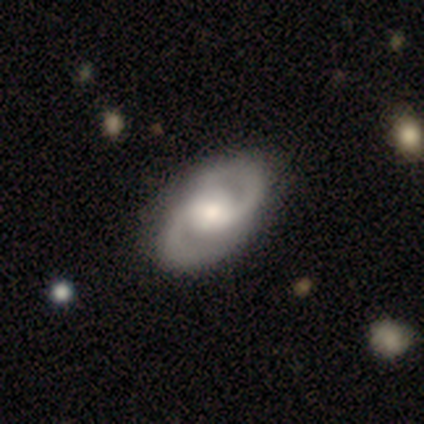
Smooth or featured? featured or disk (80%)
Edge-on disk? no (100%)
Bar? no (75%)
Spiral arms? yes (100%)
Spiral winding? tight (75%)
Spiral arm count? 2 (100%)
Bulge size? moderate (50%, tied with small)
Merging? none (100%)